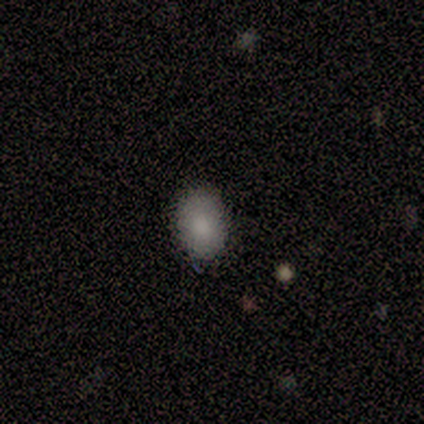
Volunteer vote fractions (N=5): Smooth or featured: smooth — 80% (star or artifact — 20%)
How rounded: in between — 75% (round — 25%)
Merging: none — 100%